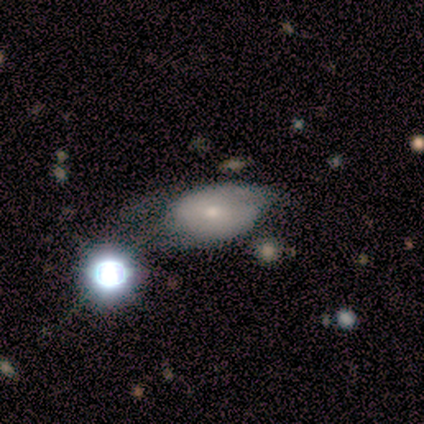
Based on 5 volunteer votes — Smooth or featured? 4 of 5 (80%) said smooth. How rounded? 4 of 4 (100%) said in between. Merging? 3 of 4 (75%) said minor disturbance.